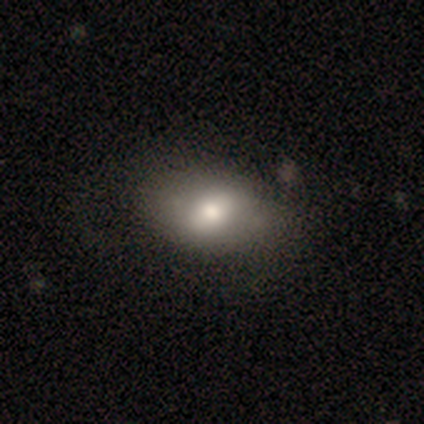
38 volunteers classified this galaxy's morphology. type=smooth (76%); roundness=in between (79%); merging=none (75%).